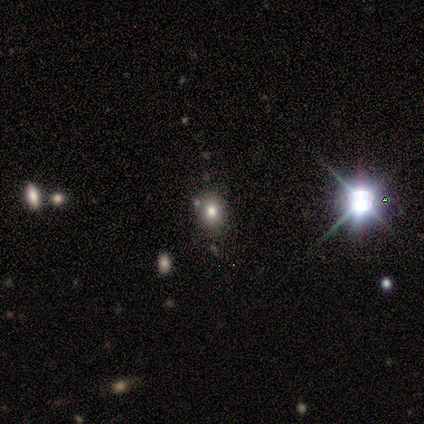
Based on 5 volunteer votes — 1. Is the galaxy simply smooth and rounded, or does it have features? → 80% smooth, 20% star or artifact, 0% featured or disk.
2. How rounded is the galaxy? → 50% round (tied), 50% in between (tied), 0% cigar-shaped.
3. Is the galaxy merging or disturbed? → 100% none, 0% minor disturbance, 0% major disturbance, 0% merger.